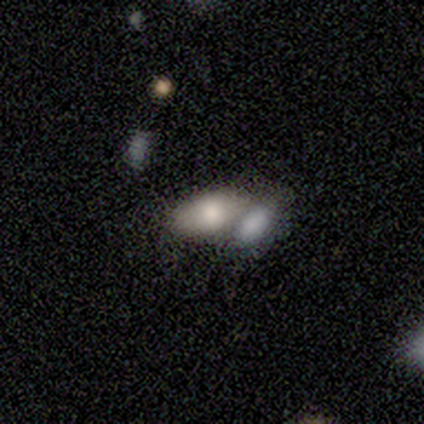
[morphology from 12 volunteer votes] Smooth or featured?
  - smooth: 58% *
  - star or artifact: 25%
  - featured or disk: 17%
How rounded?
  - in between: 100% *
  - round: 0%
  - cigar-shaped: 0%
Merging?
  - merger: 78% *
  - minor disturbance: 11%
  - major disturbance: 11%
  - none: 0%